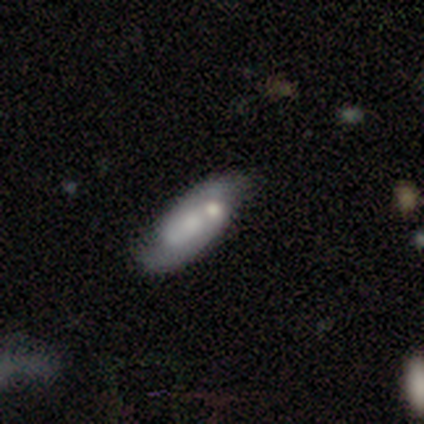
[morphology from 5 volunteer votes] smooth-or-featured: smooth: 40% (tied) | featured or disk: 40% (tied) | star or artifact: 20%
  how-rounded: in between: 50% (tied) | cigar-shaped: 50% (tied) | round: 0%
  merging: major disturbance: 50% | none: 25% | merger: 25% | minor disturbance: 0%